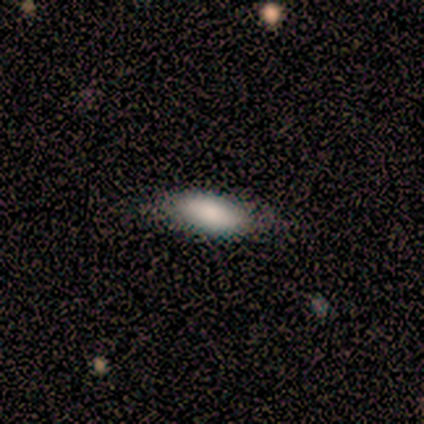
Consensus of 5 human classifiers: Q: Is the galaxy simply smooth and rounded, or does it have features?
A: smooth — 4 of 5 (80%).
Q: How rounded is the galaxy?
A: in between — 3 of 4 (75%).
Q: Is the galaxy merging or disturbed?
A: none — 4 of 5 (80%).